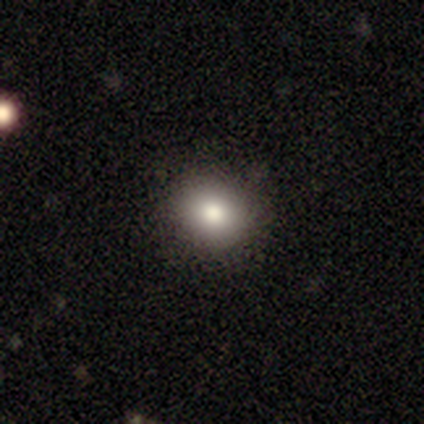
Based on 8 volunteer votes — This appears to be a smooth galaxy with no disk features (100%) that is round (75%). Merging: none (88%).